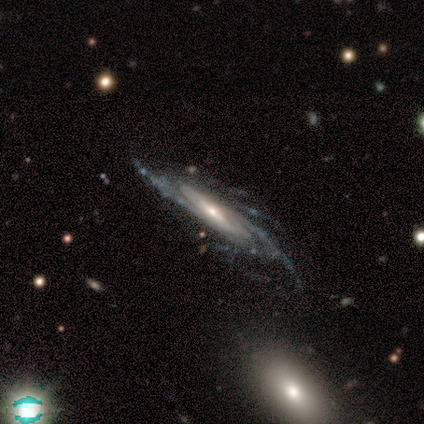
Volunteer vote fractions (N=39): Smooth or featured?
  - featured or disk: 87% *
  - star or artifact: 8%
  - smooth: 5%
Edge-on disk?
  - no: 79% *
  - yes: 21%
Bar?
  - weak: 44% *
  - no: 41%
  - strong: 15%
Spiral arms?
  - yes: 100% *
  - no: 0%
Spiral winding?
  - tight: 63% *
  - medium: 22%
  - loose: 15%
Spiral arm count?
  - can't tell: 56% *
  - more than 4: 30%
  - 4: 15%
  - 1: 0%
  - 2: 0%
  - 3: 0%
Bulge size?
  - small: 63% *
  - moderate: 33%
  - dominant: 4%
  - large: 0%
  - none: 0%
Merging?
  - none: 72% *
  - minor disturbance: 28%
  - major disturbance: 0%
  - merger: 0%